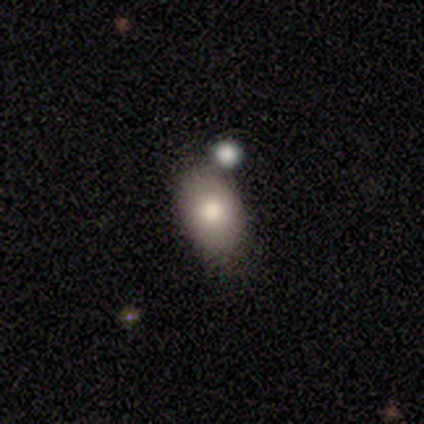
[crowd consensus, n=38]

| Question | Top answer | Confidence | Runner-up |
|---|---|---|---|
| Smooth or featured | smooth | 87% | featured or disk (11%) |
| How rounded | in between | 91% | round (9%) |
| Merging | none | 70% | merger (16%) |